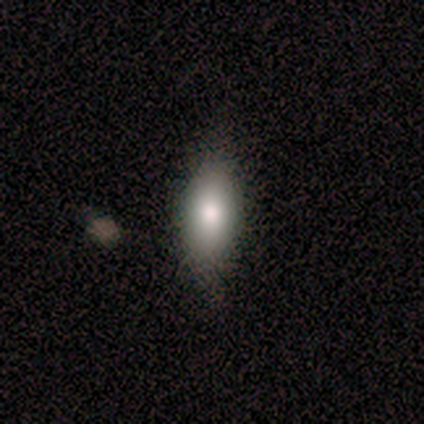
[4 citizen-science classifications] smooth_or_featured: smooth (p=1.00)
how_rounded: in between (p=1.00)
merging: none (p=0.75) [alt: minor disturbance p=0.25]